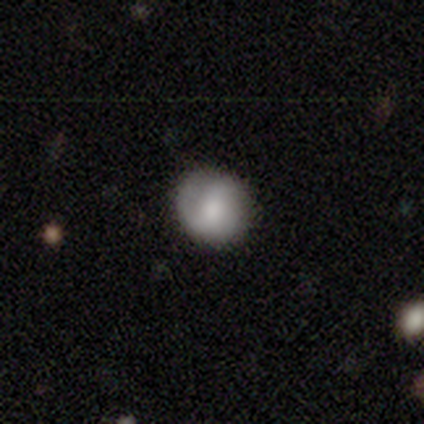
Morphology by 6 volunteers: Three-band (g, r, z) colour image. It shows a smooth galaxy with no disk features (50%, tied with featured or disk) that is round (100%). Merging: none (83%).